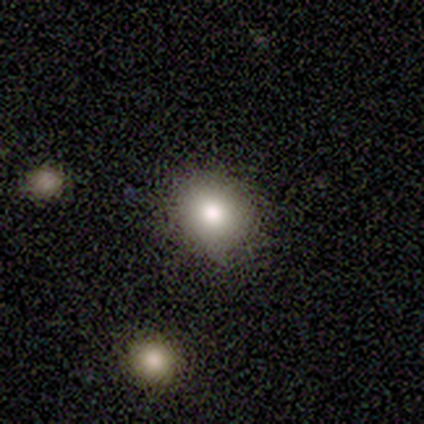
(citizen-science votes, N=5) This appears to be a smooth galaxy with no disk features (60%) that is round (67%). Merging: none (75%).